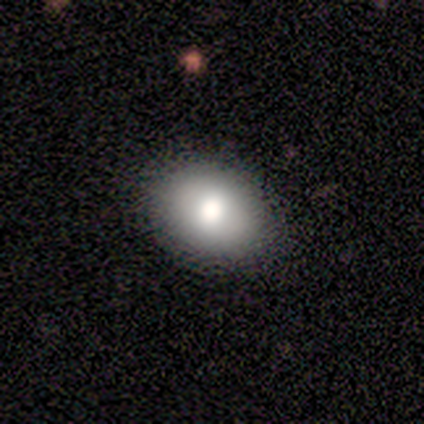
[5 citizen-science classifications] Volunteers were most divided on "how rounded": in between: 80%, round: 20%, cigar-shaped: 0%. More confident: smooth or featured — smooth (100%); merging — none (80%).